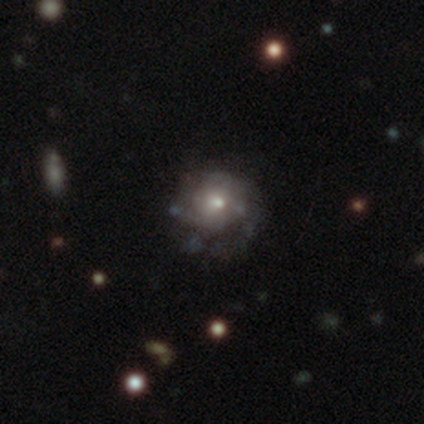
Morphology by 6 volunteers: This is possibly a featured or disk galaxy (50%). It is clearly not viewed edge-on (100%). Bar: clearly no (100%). Spiral arm pattern: likely yes (67%). Spiral arm count: possibly 3 (50%, tied with can't tell). Spiral winding: possibly medium (50%, tied with loose). Central bulge: marginally moderate (33%, tied with small and none). Merging: likely none (75%).